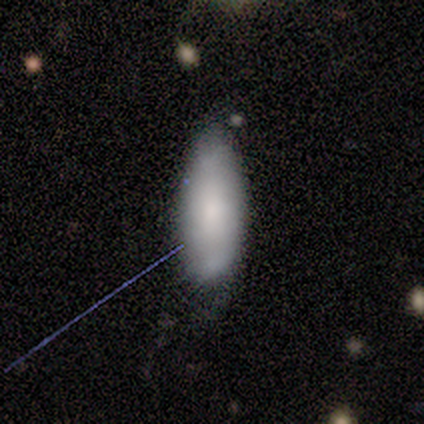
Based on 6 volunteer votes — Overall: smooth (67%; featured or disk 33%). How rounded: in between (75%). Merging: none (67%).